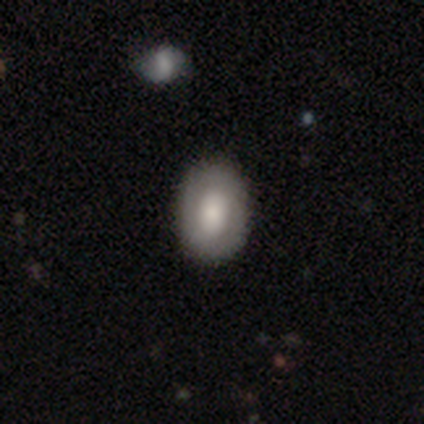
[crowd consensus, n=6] Smooth or featured?
  - smooth: 100% *
  - featured or disk: 0%
  - star or artifact: 0%
How rounded?
  - in between: 67% *
  - round: 33%
  - cigar-shaped: 0%
Merging?
  - none: 100% *
  - minor disturbance: 0%
  - major disturbance: 0%
  - merger: 0%